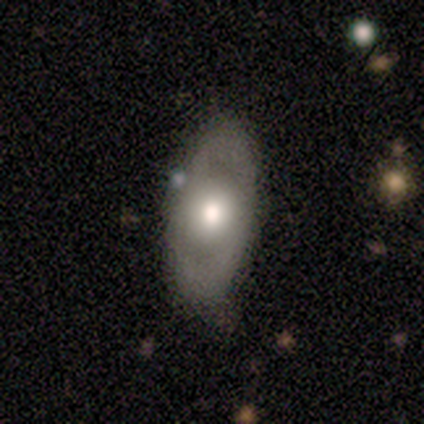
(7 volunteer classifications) This is possibly a featured or disk galaxy (57%). It is clearly not viewed edge-on (100%). Bar: clearly no (100%). Spiral arm pattern: clearly no (100%). Central bulge: possibly large (50%, tied with moderate). Merging: clearly none (86%).